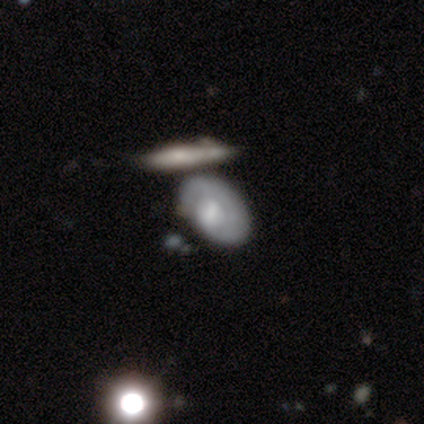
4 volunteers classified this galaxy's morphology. Smooth or featured? 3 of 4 (75%) said smooth. How rounded? 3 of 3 (100%) said in between. Merging? 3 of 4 (75%) said none.